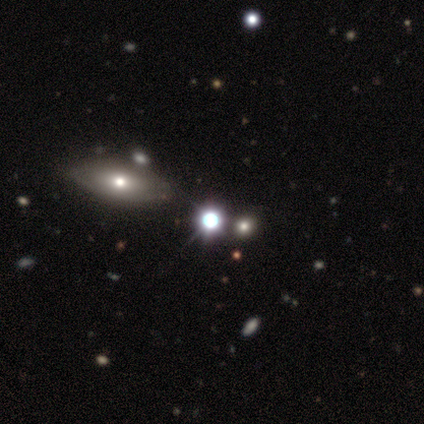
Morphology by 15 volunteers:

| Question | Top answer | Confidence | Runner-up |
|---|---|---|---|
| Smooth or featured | smooth | 47% | star or artifact (33%) |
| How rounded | round | 71% | in between (14%) |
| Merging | none | 80% | minor disturbance (10%) |